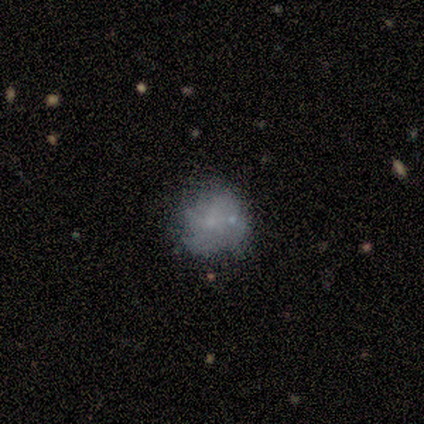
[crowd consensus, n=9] A smooth galaxy with no disk features (78%) that is round (100%). Merging: none (62%).